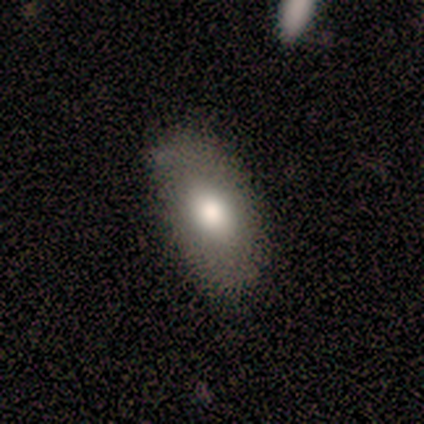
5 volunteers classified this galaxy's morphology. type=smooth (100%); roundness=in between (100%); merging=none (100%).